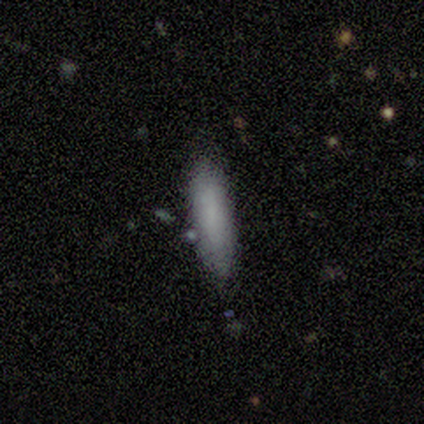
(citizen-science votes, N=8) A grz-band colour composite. It shows a smooth galaxy with no disk features (100%) that is cigar-shaped (75%). Merging: none (88%).